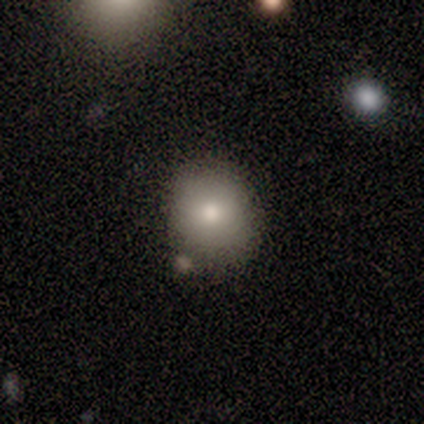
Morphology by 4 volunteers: smooth_or_featured: smooth (p=0.75) [alt: featured or disk p=0.25]
how_rounded: round (p=0.67) [alt: in between p=0.33]
merging: none (p=0.75) [alt: minor disturbance p=0.25]